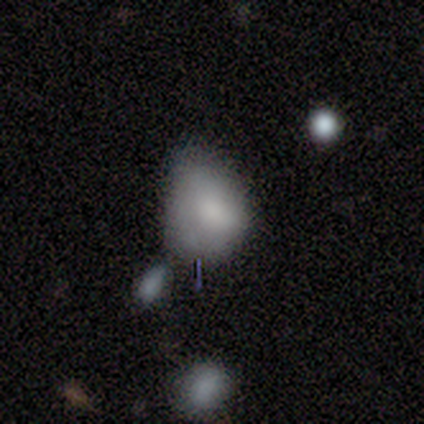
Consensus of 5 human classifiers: Q: Smooth or featured?
A: smooth (100%)
Q: How rounded?
A: in between (100%)
Q: Merging?
A: major disturbance (60%); runner-up: none (20%)